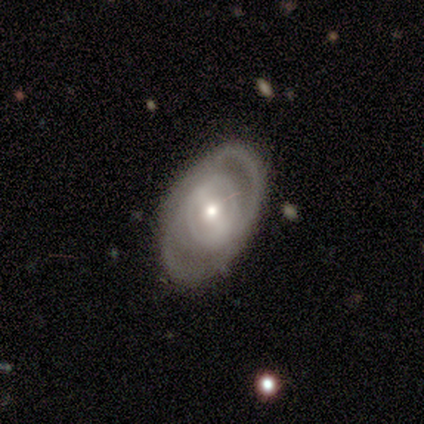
This appears to be a featured or disk galaxy (80%) with no bar (50%), 1 (50%, tied with 2) tight (75%) spiral arms (100%) and a moderate central bulge (75%). Merging: none (80%).